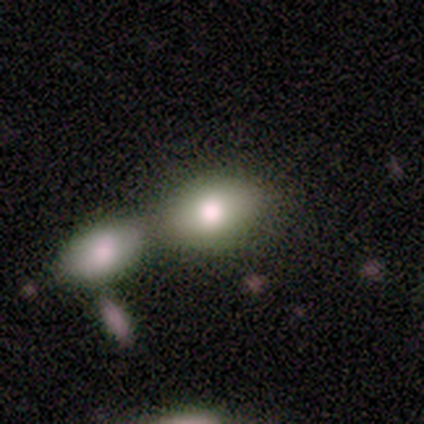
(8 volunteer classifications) This appears to be a smooth galaxy with no disk features (88%) that is in between round and cigar-shaped (100%). Merging: merger (57%).